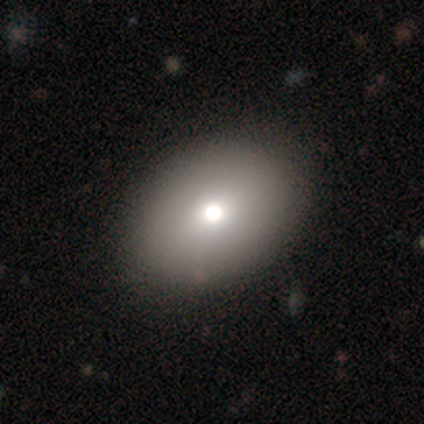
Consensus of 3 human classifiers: This appears to be a smooth galaxy with no disk features (67%) that is in between round and cigar-shaped (100%). Merging: none (100%).